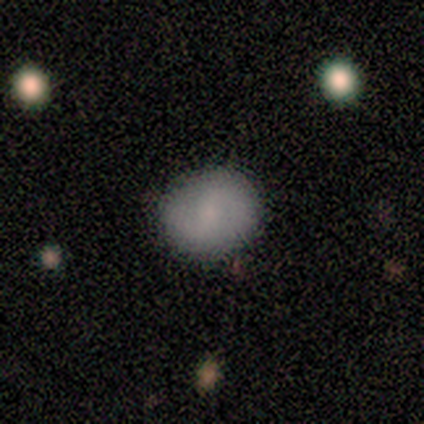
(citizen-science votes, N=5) Morphology: type=featured or disk (60%); edge-on=no (100%); bar=no (67%); spiral arms=yes (100%); winding=tight (67%); arm count=2 (67%); bulge=moderate (67%); merging=none (80%).